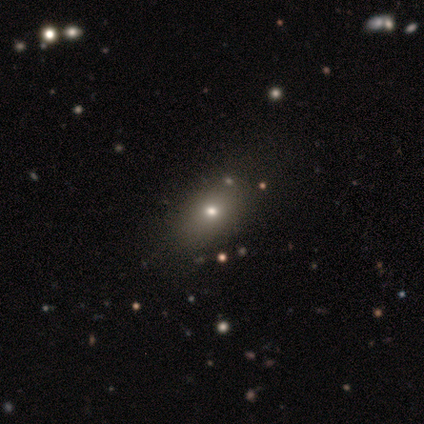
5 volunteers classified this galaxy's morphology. This is marginally a smooth galaxy (40%, tied with star or artifact). How rounded: clearly in between (100%). Merging: clearly none (100%).